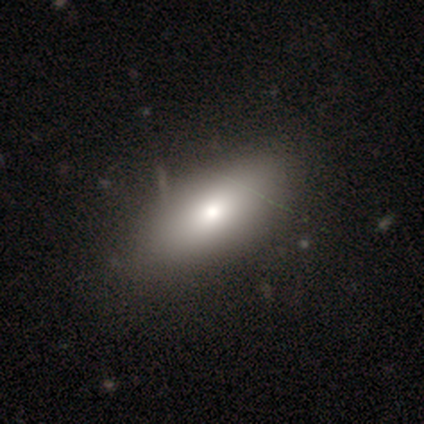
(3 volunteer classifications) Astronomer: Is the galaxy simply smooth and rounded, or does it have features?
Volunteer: smooth — 67%.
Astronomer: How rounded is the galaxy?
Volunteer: in between — 100%.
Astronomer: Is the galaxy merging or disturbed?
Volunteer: none — 67%.